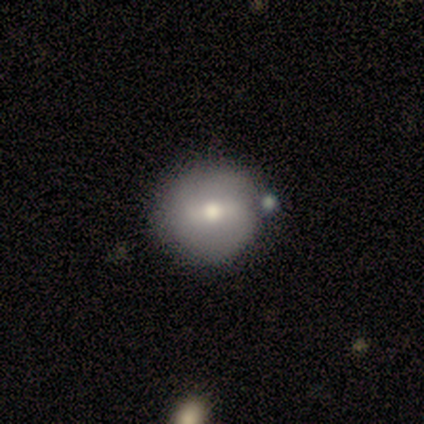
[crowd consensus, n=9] Smooth or featured: smooth — 44% (tied with featured or disk — 44%)
How rounded: round — 100%
Merging: none — 75% (minor disturbance — 12%)